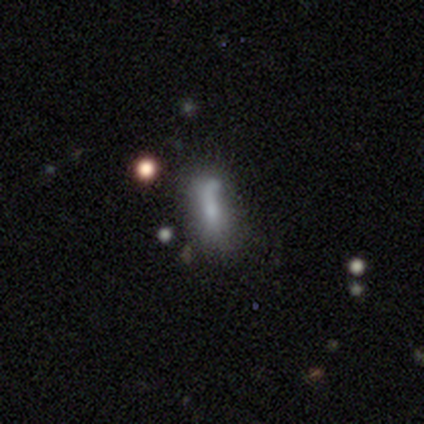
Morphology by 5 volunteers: smooth_or_featured: smooth (p=0.80) [alt: star or artifact p=0.20]
how_rounded: in between (p=0.50) [tied with: cigar-shaped p=0.50]
merging: none (p=0.50) [alt: minor disturbance p=0.25]